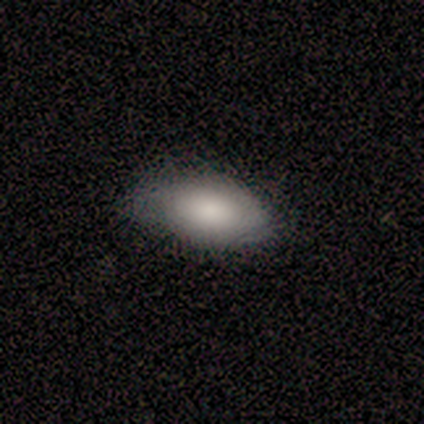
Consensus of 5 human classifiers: Smooth or featured? 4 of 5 (80%) said smooth. How rounded? 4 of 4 (100%) said in between. Merging? 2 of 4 (50%) said none.